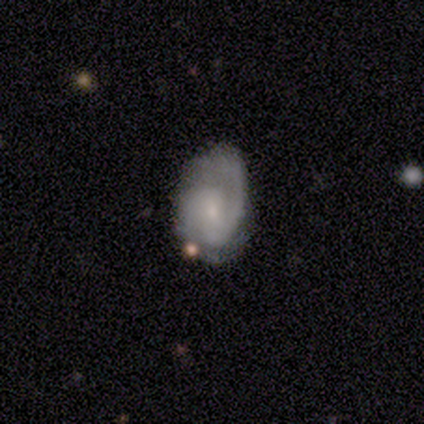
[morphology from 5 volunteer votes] Overall: featured or disk (80%). Edge-on disk: no (100%). Bar: strong (50%, tied with weak). Spiral arms: yes (100%). Spiral arm count: 2 (100%). Spiral winding: medium (75%). Bulge size: small (75%). Merging: none (75%).